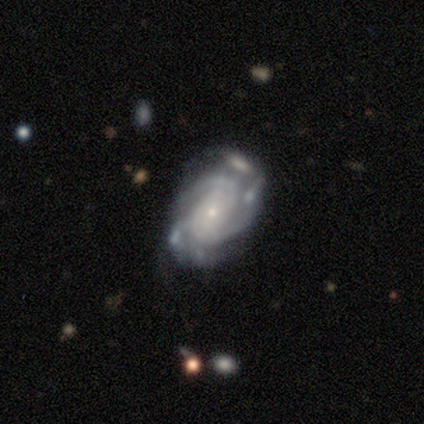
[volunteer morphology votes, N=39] This is clearly a featured or disk galaxy (100%). It is clearly not viewed edge-on (100%). Bar: likely no (72%). Spiral arm pattern: clearly yes (97%). Spiral arm count: marginally 2 (29%, tied with 3). Spiral winding: likely tight (68%). Central bulge: clearly small (82%). Merging: possibly none (54%).